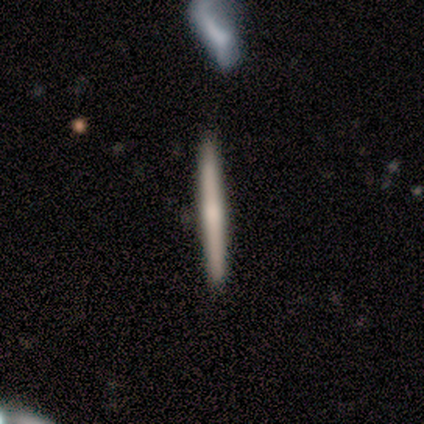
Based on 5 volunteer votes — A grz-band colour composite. It shows a featured or disk galaxy (60%) viewed edge-on (100%) with no central bulge (67%). Merging: none (100%).